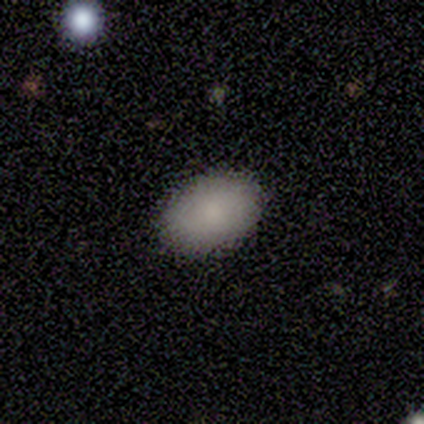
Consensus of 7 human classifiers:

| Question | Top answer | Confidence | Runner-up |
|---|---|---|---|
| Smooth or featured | smooth | 86% | featured or disk (14%) |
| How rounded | in between | 100% | — |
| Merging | none | 100% | — |